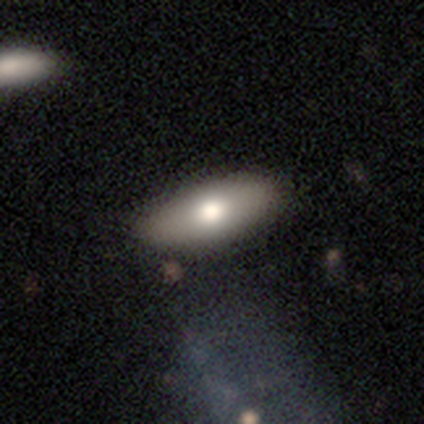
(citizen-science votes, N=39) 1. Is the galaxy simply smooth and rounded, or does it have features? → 69% smooth, 28% featured or disk, 3% star or artifact.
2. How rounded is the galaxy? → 89% in between, 11% cigar-shaped, 0% round.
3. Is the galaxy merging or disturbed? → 68% none, 3% minor disturbance, 3% major disturbance, 0% merger.